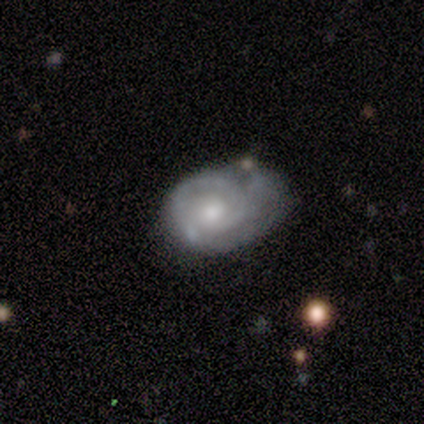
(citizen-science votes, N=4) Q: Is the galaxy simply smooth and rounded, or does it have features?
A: featured or disk — 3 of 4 (75%).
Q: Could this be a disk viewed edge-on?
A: no — 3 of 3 (100%).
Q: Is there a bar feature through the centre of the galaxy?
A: no — 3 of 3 (100%).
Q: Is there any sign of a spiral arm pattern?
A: yes — 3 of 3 (100%).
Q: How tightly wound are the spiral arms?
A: tight — 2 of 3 (67%).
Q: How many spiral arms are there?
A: can't tell — 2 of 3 (67%).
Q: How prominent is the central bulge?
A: small — 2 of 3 (67%).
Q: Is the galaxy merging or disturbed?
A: none — 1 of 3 (33%, tied with minor disturbance and merger).